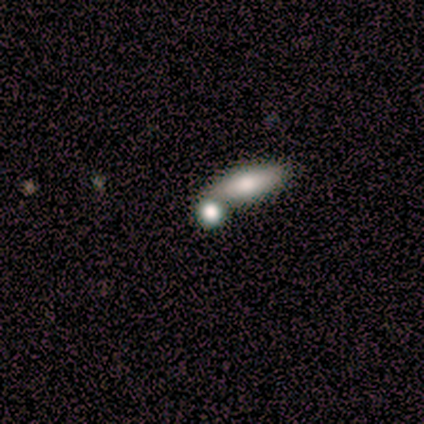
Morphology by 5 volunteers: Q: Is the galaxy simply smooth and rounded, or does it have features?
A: star or artifact — 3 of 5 (60%).